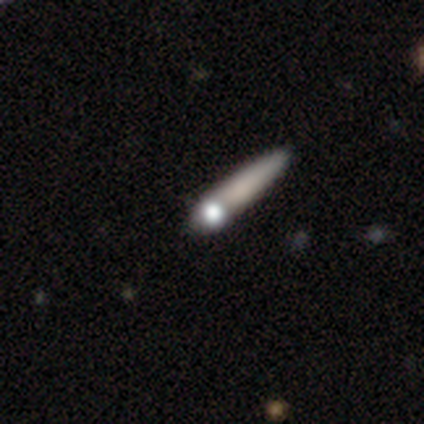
This appears to be a smooth galaxy with no disk features (50%) that is cigar-shaped (100%). Merging: none (100%).